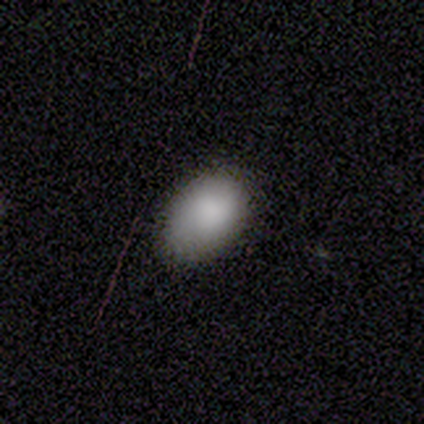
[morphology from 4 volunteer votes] A smooth galaxy with no disk features (100%) that is in between round and cigar-shaped (75%). Merging: none (50%, tied with minor disturbance).